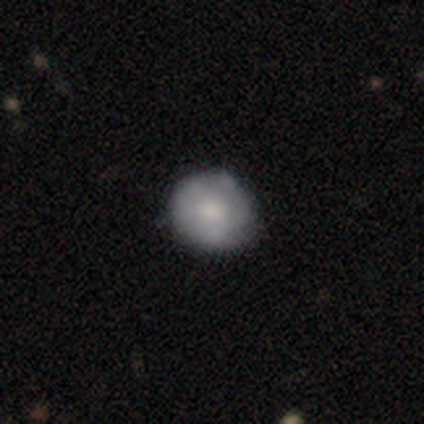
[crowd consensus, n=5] smooth_or_featured: featured or disk (p=0.80) [alt: smooth p=0.20]
disk_edge_on: no (p=1.00)
bar: no (p=1.00)
has_spiral_arms: yes (p=0.50) [tied with: no p=0.50]
spiral_winding: tight (p=1.00)
spiral_arm_count: 2 (p=0.50) [tied with: can't tell p=0.50]
bulge_size: large (p=0.25) [tied with: moderate p=0.25, small p=0.25, none p=0.25]
merging: none (p=0.40) [tied with: minor disturbance p=0.40]